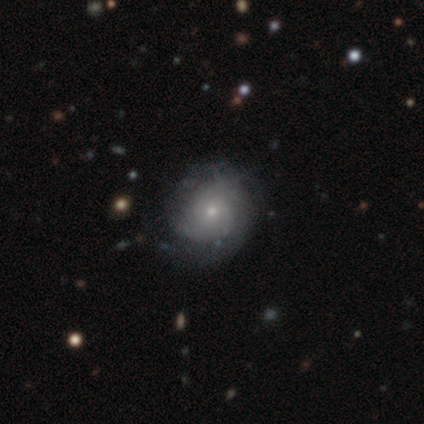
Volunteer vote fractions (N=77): featured or disk 69%, smooth 29%, star or artifact 3%. Down the decision tree: edge-on disk — no (98%); bar — no (92%); spiral arms — yes (88%); spiral arm count — can't tell (65%); spiral winding — tight (70%); bulge size — small (73%); merging — none (37%).